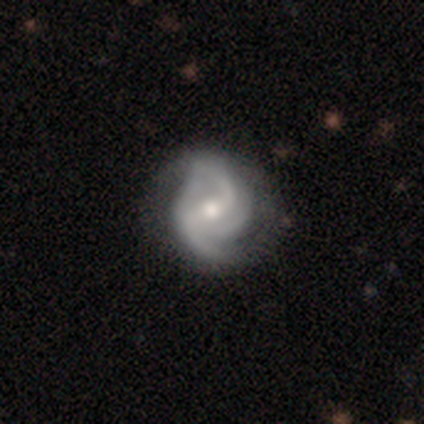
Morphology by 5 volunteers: This appears to be a featured or disk galaxy (80%) with a weak bar (50%), 2 (50%) medium (50%) spiral arms (100%) and a moderate central bulge (75%). Merging: none (50%).